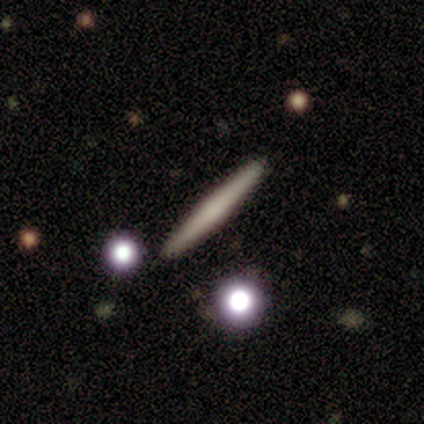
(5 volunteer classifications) smooth 80%, featured or disk 20%, star or artifact 0%. Down the decision tree: how rounded — cigar-shaped (100%); merging — none (80%).